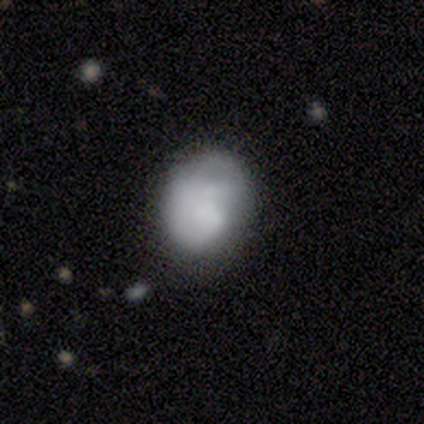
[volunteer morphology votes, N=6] Smooth or featured? 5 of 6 (83%) said smooth. How rounded? 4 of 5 (80%) said in between. Merging? 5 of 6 (83%) said none.